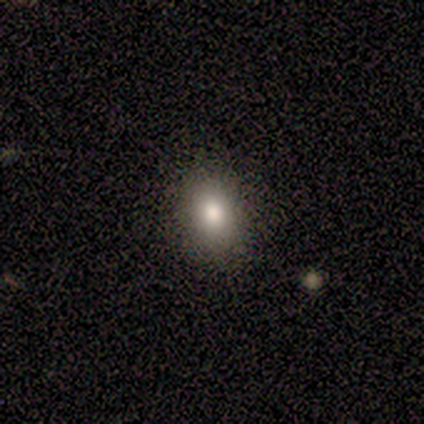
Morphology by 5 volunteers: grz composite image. It shows a smooth galaxy with no disk features (100%) that is in between round and cigar-shaped (100%). Merging: none (100%).